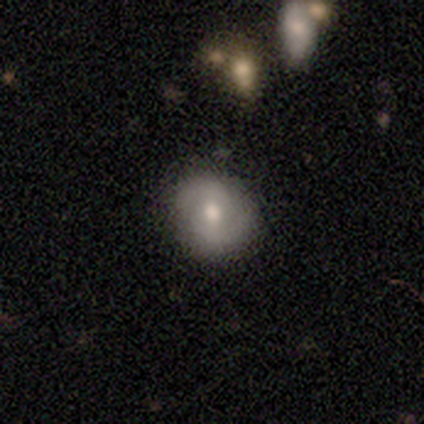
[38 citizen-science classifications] Overall: smooth (53%; featured or disk 37%). How rounded: round (80%). Merging: none (56%).